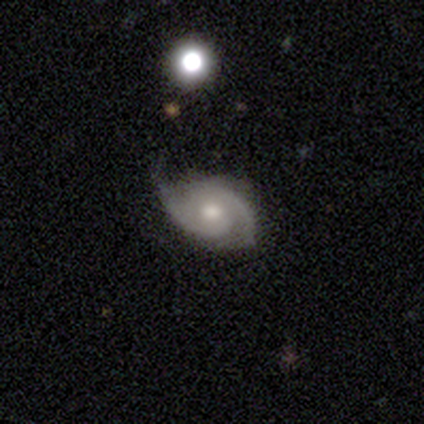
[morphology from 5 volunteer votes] Smooth or featured? featured or disk (100%)
Edge-on disk? no (100%)
Bar? no (80%)
Spiral arms? yes (100%)
Spiral winding? medium (60%)
Spiral arm count? 2 (100%)
Bulge size? moderate (60%)
Merging? none (60%)